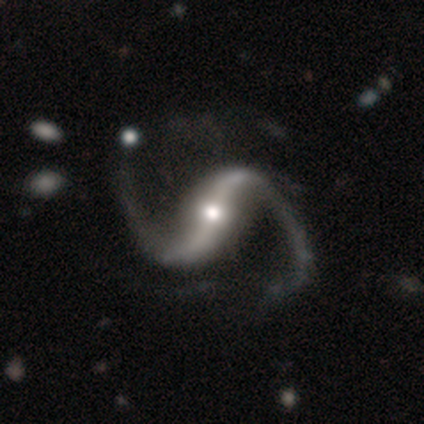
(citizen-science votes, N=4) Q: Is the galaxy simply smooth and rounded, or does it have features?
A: featured or disk — 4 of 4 (100%).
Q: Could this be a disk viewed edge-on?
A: no — 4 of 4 (100%).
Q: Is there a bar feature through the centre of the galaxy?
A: weak — 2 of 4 (50%).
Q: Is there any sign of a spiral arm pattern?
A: yes — 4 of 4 (100%).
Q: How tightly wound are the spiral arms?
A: loose — 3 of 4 (75%).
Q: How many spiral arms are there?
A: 2 — 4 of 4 (100%).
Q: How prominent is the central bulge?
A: small — 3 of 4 (75%).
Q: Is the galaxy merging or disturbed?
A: none — 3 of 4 (75%).